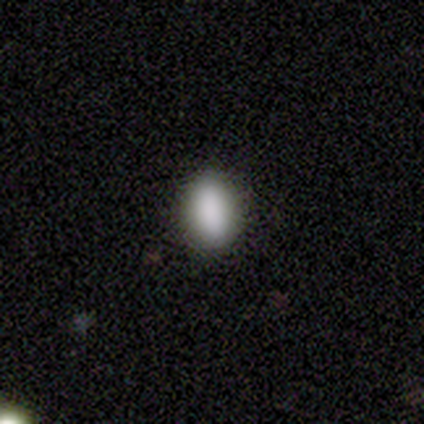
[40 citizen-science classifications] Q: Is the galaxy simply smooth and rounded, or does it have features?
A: smooth — 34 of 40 (85%).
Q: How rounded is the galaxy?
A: in between — 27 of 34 (79%).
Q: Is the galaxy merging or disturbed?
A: none — 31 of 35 (89%).